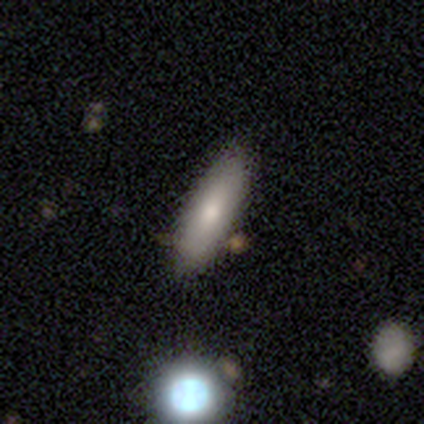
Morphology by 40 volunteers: smooth-or-featured: smooth: 80% | featured or disk: 18% | star or artifact: 2%
  how-rounded: cigar-shaped: 53% | in between: 47% | round: 0%
  merging: none: 62% | merger: 8% | minor disturbance: 3% | major disturbance: 0%